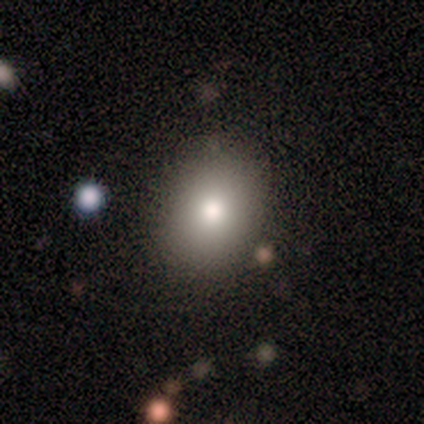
A smooth galaxy with no disk features (60%) that is in between round and cigar-shaped (100%).

Vote fractions:
- Smooth or featured? smooth: 60% / star or artifact: 40% / featured or disk: 0%
- How rounded? in between: 100% / round: 0% / cigar-shaped: 0%
- Merging? none: 67% / minor disturbance: 33% / major disturbance: 0% / merger: 0%